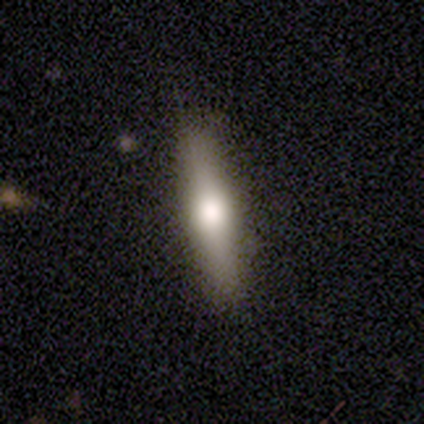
Q: Smooth or featured?
A: featured or disk (48%); runner-up: smooth (42%)
Q: Edge-on disk?
A: yes (89%); runner-up: no (11%)
Q: Edge-on bulge?
A: rounded (94%); runner-up: boxy (6%)
Q: Merging?
A: none (81%); runner-up: minor disturbance (17%)